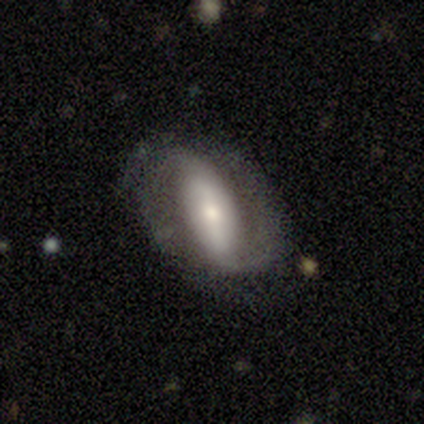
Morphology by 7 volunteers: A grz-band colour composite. It shows a featured or disk galaxy (86%) with no bar (50%), 2 (100%) medium (50%) spiral arms (100%) and a moderate central bulge (50%, tied with small). Merging: none (57%).